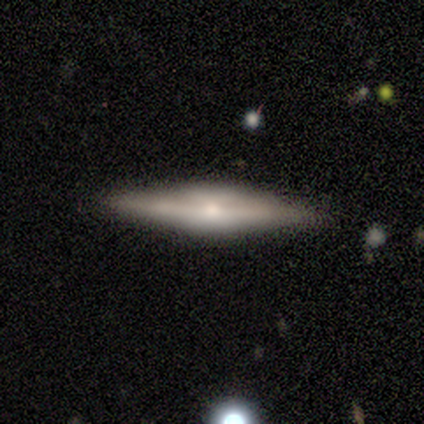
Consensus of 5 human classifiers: Smooth or featured? 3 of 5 (60%) said featured or disk. Edge-on disk? 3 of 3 (100%) said yes. Edge-on bulge? 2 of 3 (67%) said boxy. Merging? 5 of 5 (100%) said none.